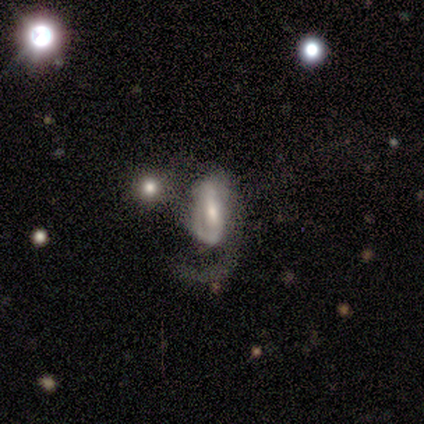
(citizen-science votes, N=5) Smooth or featured: featured or disk — 80% (smooth — 20%)
Edge-on disk: no — 100%
Bar: weak — 100%
Spiral arms: yes — 100%
Spiral winding: loose — 50% (tight — 25%)
Spiral arm count: 1 — 50% (tied with 2 — 50%)
Bulge size: moderate — 50% (tied with small — 50%)
Merging: major disturbance — 60% (none — 20%)